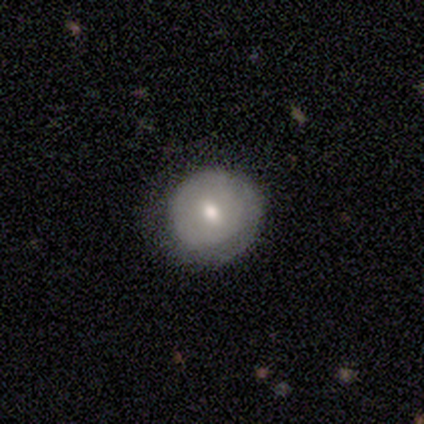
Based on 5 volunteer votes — This is marginally a featured or disk galaxy (40%, tied with star or artifact). It is clearly not viewed edge-on (100%). Bar: possibly strong (50%, tied with weak). Spiral arm pattern: clearly yes (100%). Spiral arm count: possibly 1 (50%, tied with can't tell). Spiral winding: clearly tight (100%). Central bulge: clearly moderate (100%). Merging: likely none (67%).